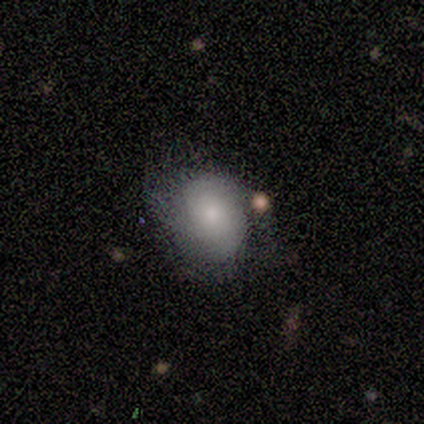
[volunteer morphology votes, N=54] Smooth or featured? featured or disk (50%)
Edge-on disk? no (100%)
Bar? no (85%)
Spiral arms? yes (70%)
Spiral winding? tight (58%)
Spiral arm count? 2 (47%)
Bulge size? moderate (44%)
Merging? none (53%)